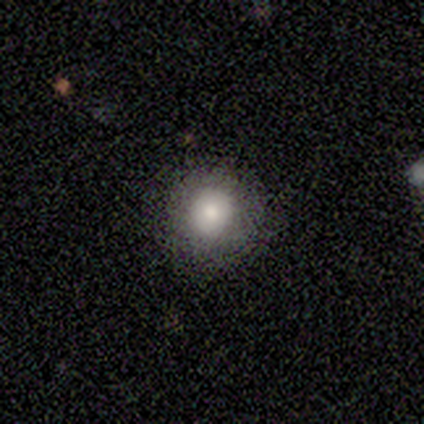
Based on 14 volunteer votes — A smooth galaxy with no disk features (93%) that is round (92%). Merging: none (64%).